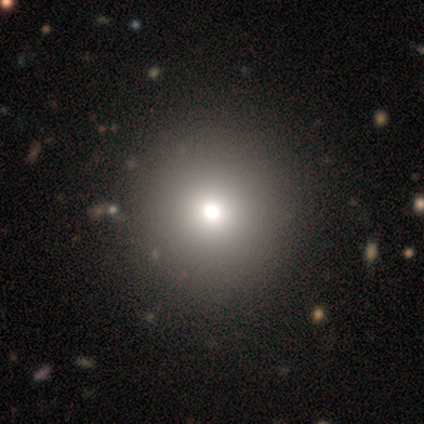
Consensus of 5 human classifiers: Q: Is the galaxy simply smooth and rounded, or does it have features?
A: smooth — 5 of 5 (100%).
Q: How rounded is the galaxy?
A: round — 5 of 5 (100%).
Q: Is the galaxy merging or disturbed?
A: none — 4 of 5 (80%).